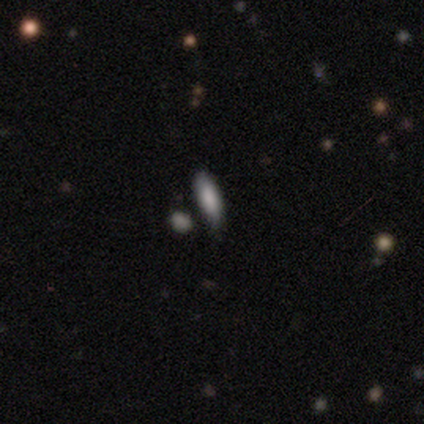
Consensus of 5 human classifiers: Smooth or featured? smooth (100%)
How rounded? in between (100%)
Merging? none (80%)